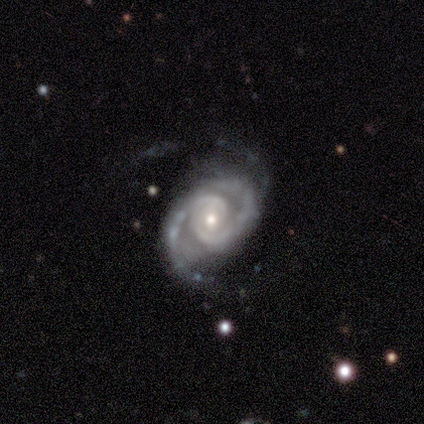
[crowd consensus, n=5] featured or disk 80%, star or artifact 20%, smooth 0%. Down the decision tree: edge-on disk — no (100%); bar — no (75%); spiral arms — yes (100%); spiral arm count — 2 (100%); spiral winding — tight (50%, tied with medium); bulge size — moderate (75%); merging — none (50%).